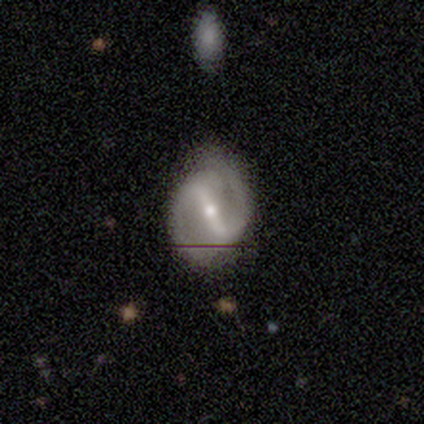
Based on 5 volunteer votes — This appears to be a featured or disk galaxy (80%) with a strong bar (67%), 2 (100%) medium (100%) spiral arms (100%) and a small central bulge (100%). Merging: none (75%).